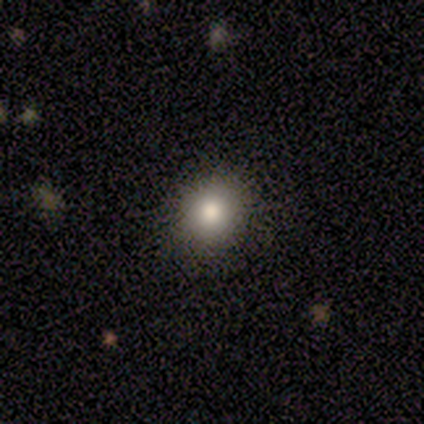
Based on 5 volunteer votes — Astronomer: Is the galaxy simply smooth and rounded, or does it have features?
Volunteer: smooth — 80%.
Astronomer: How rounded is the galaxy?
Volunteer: round — 75%.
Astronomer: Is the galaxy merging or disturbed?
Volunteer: none — 100%.